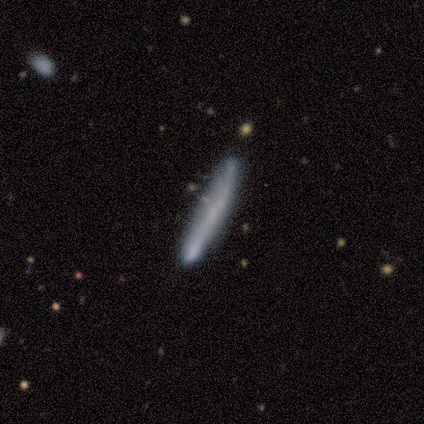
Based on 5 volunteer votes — Volunteers were most divided on "smooth or featured": featured or disk: 60%, smooth: 40%, star or artifact: 0%. More confident: edge-on disk — yes (100%); edge-on bulge — none (100%); merging — none (100%).